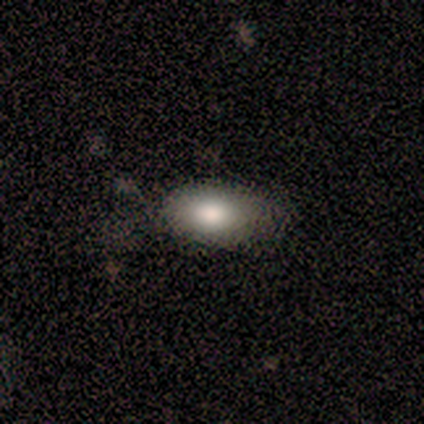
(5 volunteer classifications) Overall: smooth (80%). How rounded: in between (100%). Merging: minor disturbance (60%; none 40%).